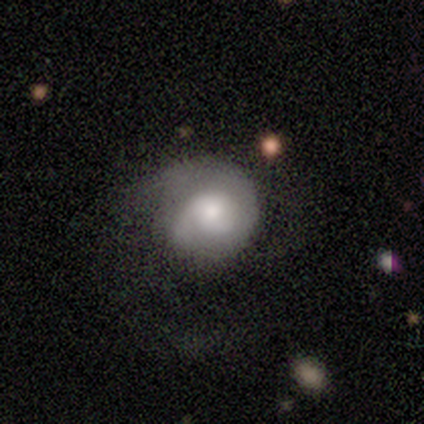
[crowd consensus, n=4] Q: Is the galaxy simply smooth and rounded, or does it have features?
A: featured or disk — 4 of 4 (100%).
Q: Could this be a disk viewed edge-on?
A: no — 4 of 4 (100%).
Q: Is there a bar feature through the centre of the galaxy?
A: no — 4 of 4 (100%).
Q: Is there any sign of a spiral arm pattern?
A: yes — 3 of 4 (75%).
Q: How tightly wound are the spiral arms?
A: tight — 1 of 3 (33%, tied with medium and loose).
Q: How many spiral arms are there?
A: can't tell — 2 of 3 (67%).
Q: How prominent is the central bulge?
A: moderate — 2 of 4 (50%).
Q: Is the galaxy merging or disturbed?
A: none — 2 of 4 (50%, tied with minor disturbance).